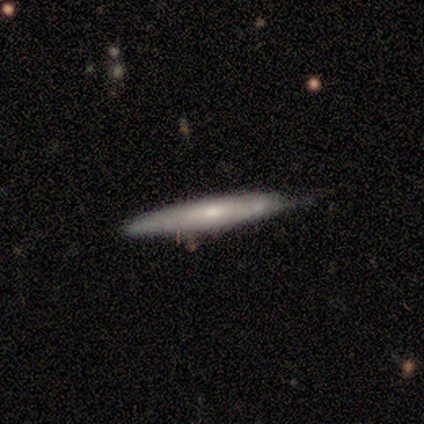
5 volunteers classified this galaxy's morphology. Smooth or featured?
  - smooth: 60% *
  - featured or disk: 40%
  - star or artifact: 0%
How rounded?
  - cigar-shaped: 67% *
  - round: 33%
  - in between: 0%
Merging?
  - none: 60% *
  - minor disturbance: 40%
  - major disturbance: 0%
  - merger: 0%